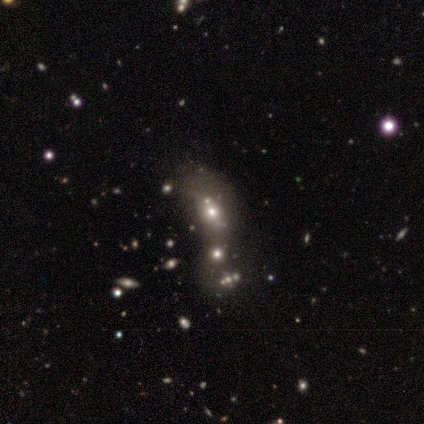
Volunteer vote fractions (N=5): Morphology: type=smooth (40%, tied with star or artifact); roundness=round (50%, tied with in between); merging=none (67%).